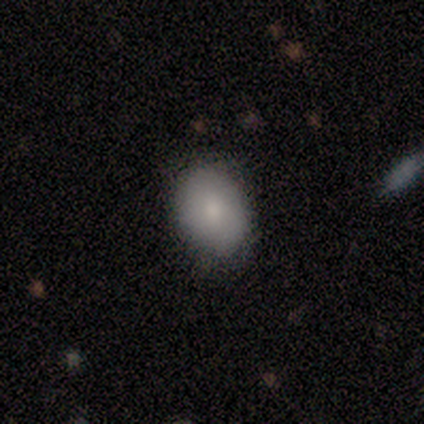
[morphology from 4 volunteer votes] smooth 100%, featured or disk 0%, star or artifact 0%. Down the decision tree: how rounded — in between (75%); merging — none (100%).